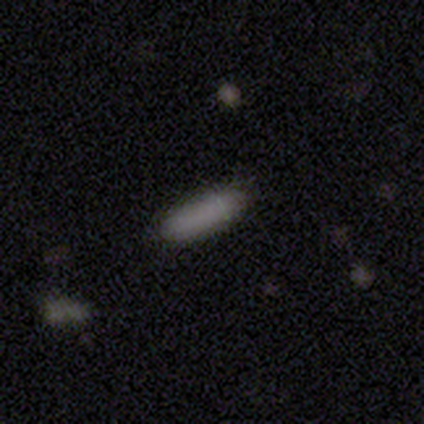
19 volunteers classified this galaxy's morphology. Smooth or featured? smooth (95%)
How rounded? in between (50%, tied with cigar-shaped)
Merging? none (84%)